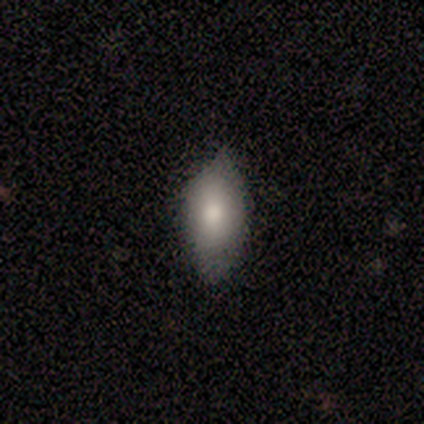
This appears to be a smooth galaxy with no disk features (100%) that is in between round and cigar-shaped (100%). Merging: none (100%).